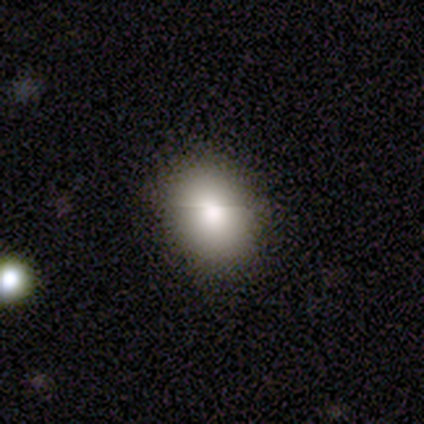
A smooth galaxy with no disk features (60%) that is in between round and cigar-shaped (67%).

Vote fractions:
- Smooth or featured? smooth: 60% / featured or disk: 40% / star or artifact: 0%
- How rounded? in between: 67% / round: 33% / cigar-shaped: 0%
- Merging? none: 100% / minor disturbance: 0% / major disturbance: 0% / merger: 0%